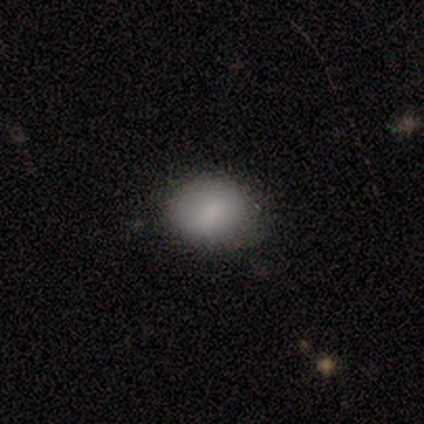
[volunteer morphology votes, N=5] smooth_or_featured: smooth (p=0.80) [alt: featured or disk p=0.20]
how_rounded: round (p=0.50) [alt: in between p=0.25]
merging: minor disturbance (p=0.60) [alt: none p=0.40]